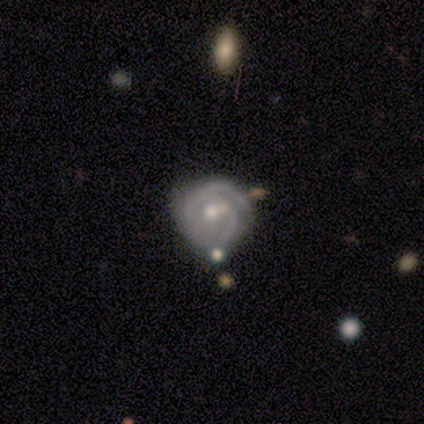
A smooth galaxy with no disk features (60%) that is round (67%). Merging: none (100%).